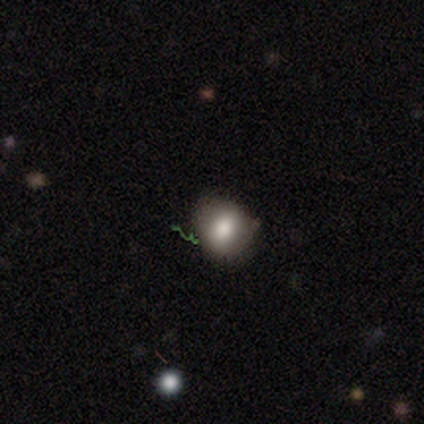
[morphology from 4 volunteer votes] Q: Smooth or featured?
A: smooth (75%); runner-up: featured or disk (25%)
Q: How rounded?
A: round (67%); runner-up: in between (33%)
Q: Merging?
A: none (50%); tied with: minor disturbance (50%)